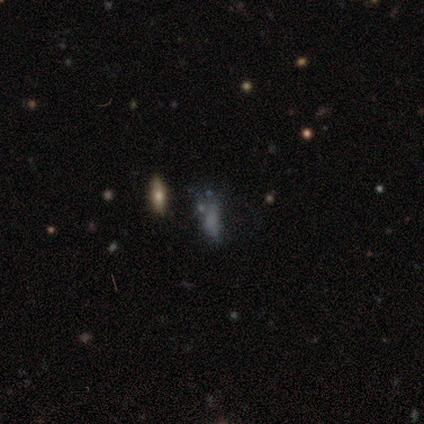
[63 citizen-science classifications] Volunteers were most divided on "smooth or featured": featured or disk: 43%, smooth: 40%, star or artifact: 17%. Remaining: edge-on disk — no (100%); bar — no (96%); bulge size — none (93%); spiral arms — no (85%); merging — major disturbance (40%).